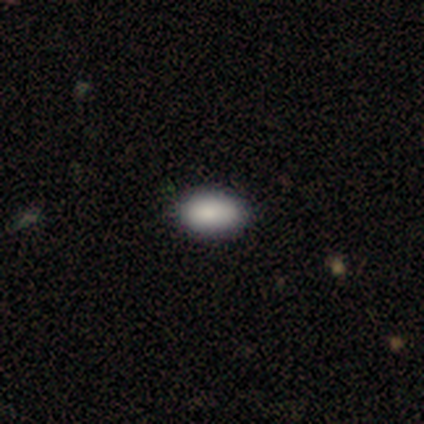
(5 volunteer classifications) This is clearly a smooth galaxy (80%). How rounded: clearly in between (100%). Merging: likely none (75%).